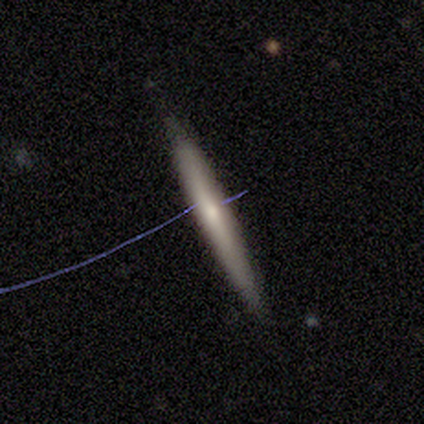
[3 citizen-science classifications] Smooth or featured?
  - featured or disk: 67% *
  - smooth: 33%
  - star or artifact: 0%
Edge-on disk?
  - yes: 100% *
  - no: 0%
Edge-on bulge?
  - rounded: 100% *
  - boxy: 0%
  - none: 0%
Merging?
  - none: 67% *
  - minor disturbance: 33%
  - major disturbance: 0%
  - merger: 0%